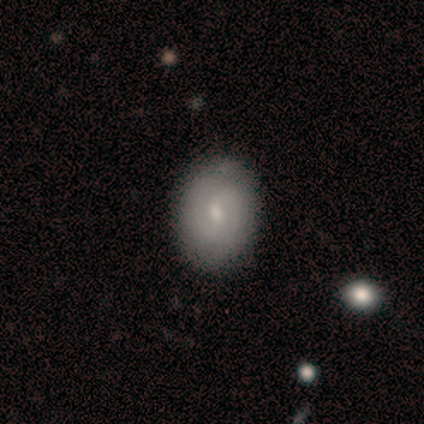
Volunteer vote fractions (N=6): smooth-or-featured: featured or disk: 100% | smooth: 0% | star or artifact: 0%
  disk-edge-on: no: 100% | yes: 0%
    bar: weak: 67% | no: 33% | strong: 0%
    has-spiral-arms: yes: 100% | no: 0%
      spiral-winding: tight: 50% | medium: 33% | loose: 17%
      spiral-arm-count: 2: 83% | can't tell: 17% | 1: 0% | 3: 0% | 4: 0% | more than 4: 0%
    bulge-size: small: 50% | moderate: 33% | large: 17% | dominant: 0% | none: 0%
  merging: none: 83% | minor disturbance: 17% | major disturbance: 0% | merger: 0%